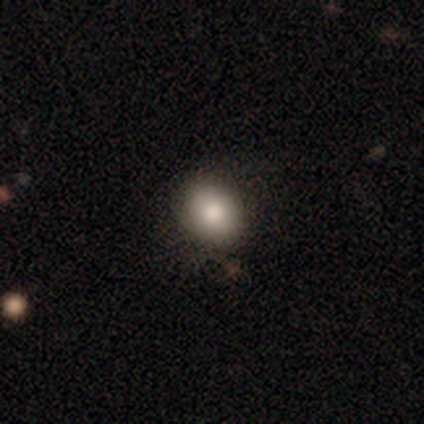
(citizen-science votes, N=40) Smooth or featured?
  - smooth: 72% *
  - star or artifact: 15%
  - featured or disk: 12%
How rounded?
  - round: 72% *
  - in between: 28%
  - cigar-shaped: 0%
Merging?
  - none: 82% *
  - minor disturbance: 15%
  - major disturbance: 3%
  - merger: 0%